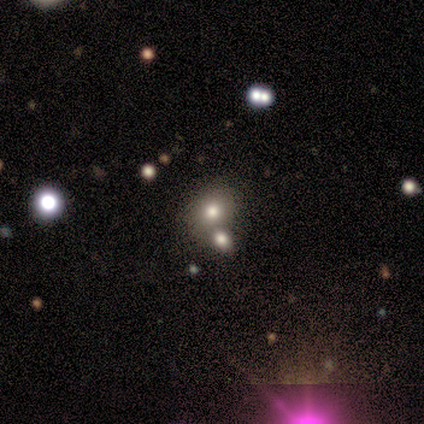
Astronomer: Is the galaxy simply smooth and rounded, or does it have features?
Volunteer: star or artifact — 100%.